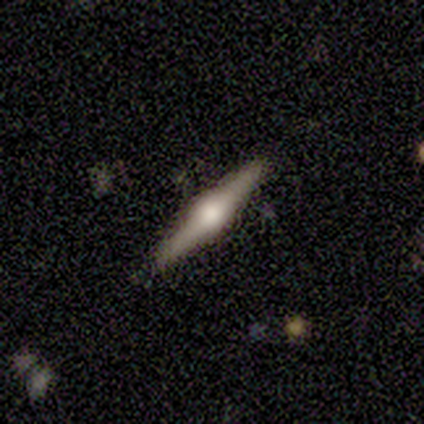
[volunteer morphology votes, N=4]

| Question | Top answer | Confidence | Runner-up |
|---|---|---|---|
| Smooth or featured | featured or disk | 75% | smooth (25%) |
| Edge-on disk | yes | 100% | — |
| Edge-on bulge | rounded | 100% | — |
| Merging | none | 100% | — |